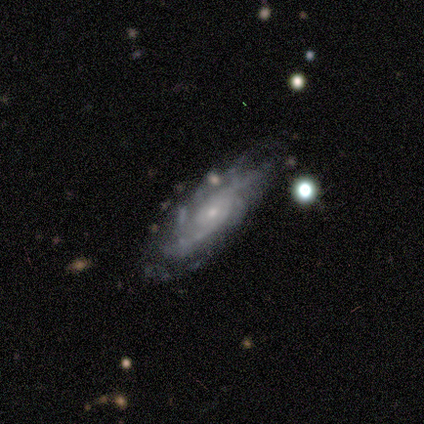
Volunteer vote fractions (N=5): Smooth or featured? 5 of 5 (100%) said featured or disk. Edge-on disk? 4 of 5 (80%) said no. Bar? 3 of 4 (75%) said no. Spiral arms? 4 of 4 (100%) said yes. Spiral winding? 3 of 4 (75%) said tight. Spiral arm count? 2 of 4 (50%) said can't tell. Bulge size? 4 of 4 (100%) said small. Merging? 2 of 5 (40%, tied with major disturbance) said minor disturbance.